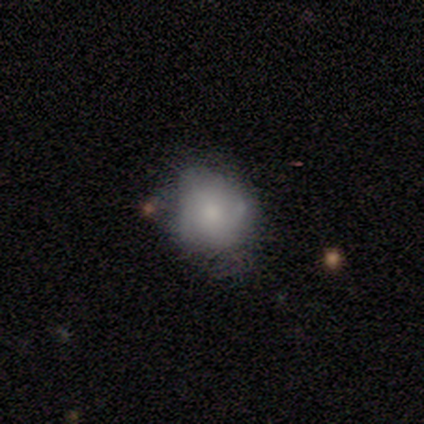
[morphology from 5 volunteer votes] A featured or disk galaxy (60%) with no bar (100%), no spiral arms (67%) and a moderate central bulge (67%).

Vote fractions:
- Smooth or featured? featured or disk: 60% / smooth: 40% / star or artifact: 0%
- Edge-on disk? no: 100% / yes: 0%
- Bar? no: 100% / strong: 0% / weak: 0%
- Spiral arms? no: 67% / yes: 33%
- Bulge size? moderate: 67% / small: 33% / dominant: 0% / large: 0% / none: 0%
- Merging? none: 40% (tied) / minor disturbance: 40% (tied) / merger: 20% / major disturbance: 0%